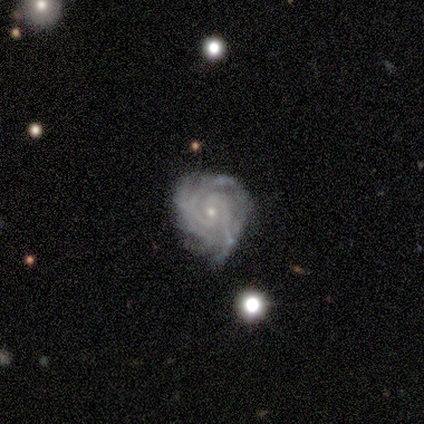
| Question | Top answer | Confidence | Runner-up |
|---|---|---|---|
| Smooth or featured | featured or disk | 100% | — |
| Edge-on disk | no | 100% | — |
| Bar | no | 64% | weak (29%) |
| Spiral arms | yes | 93% | no (7%) |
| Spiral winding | tight | 77% | medium (23%) |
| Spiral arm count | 2 | 38% | 4 (23%) |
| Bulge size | small | 93% | moderate (7%) |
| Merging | none | 64% | minor disturbance (36%) |